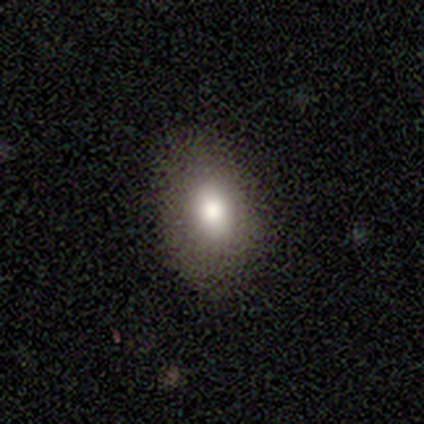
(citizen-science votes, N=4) This is possibly a smooth galaxy (50%). How rounded: clearly in between (100%). Merging: clearly none (100%).